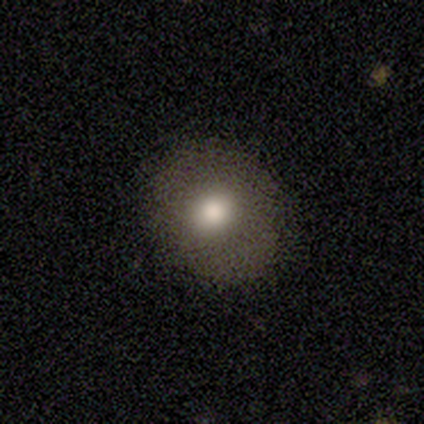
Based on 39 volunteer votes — Volunteers were most divided on "how rounded": round: 81%, in between: 19%, cigar-shaped: 0%. More confident: smooth or featured — smooth (79%); merging — none (70%).